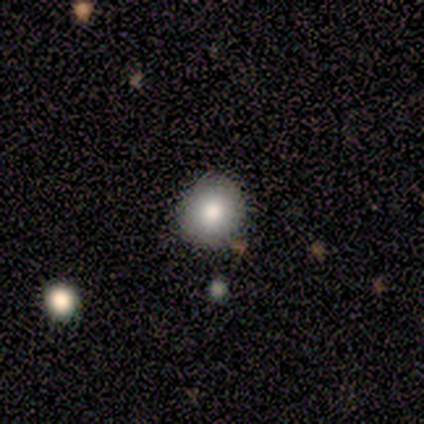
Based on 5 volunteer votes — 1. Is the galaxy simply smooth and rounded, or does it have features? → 60% smooth, 20% featured or disk, 20% star or artifact.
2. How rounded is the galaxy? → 100% round, 0% in between, 0% cigar-shaped.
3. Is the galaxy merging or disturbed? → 75% none, 25% minor disturbance, 0% major disturbance, 0% merger.